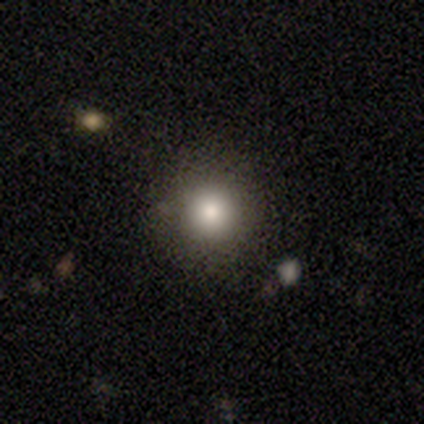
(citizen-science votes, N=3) Volunteers were most divided on "merging": none: 67%, merger: 33%, minor disturbance: 0%, major disturbance: 0%. More confident: smooth or featured — smooth (100%); how rounded — round (100%).